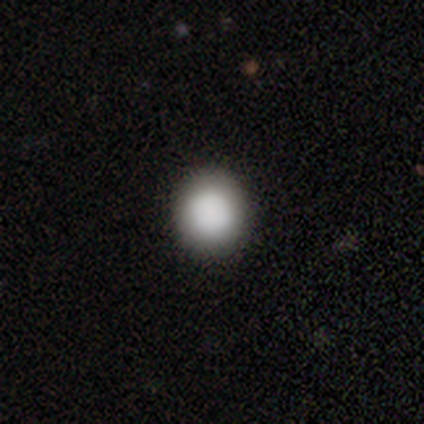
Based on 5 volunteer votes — Morphology: type=smooth (80%); roundness=round (100%); merging=none (100%).